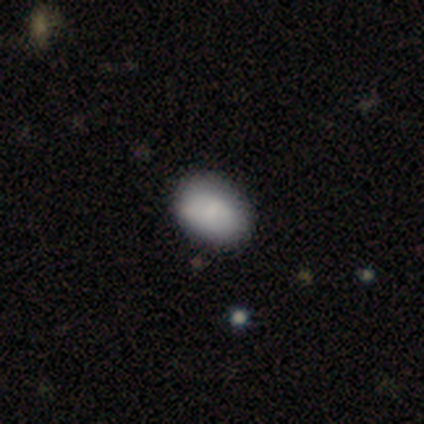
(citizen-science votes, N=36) Q: Smooth or featured?
A: smooth (78%); runner-up: star or artifact (14%)
Q: How rounded?
A: in between (71%); runner-up: round (29%)
Q: Merging?
A: none (87%); runner-up: minor disturbance (10%)